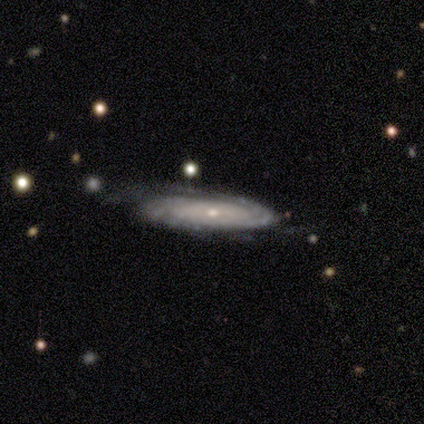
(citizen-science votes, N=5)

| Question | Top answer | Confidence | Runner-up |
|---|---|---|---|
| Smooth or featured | featured or disk | 80% | smooth (20%) |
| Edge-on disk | yes | 75% | no (25%) |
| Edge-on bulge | rounded | 67% | none (33%) |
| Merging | none | 60% | major disturbance (20%) |